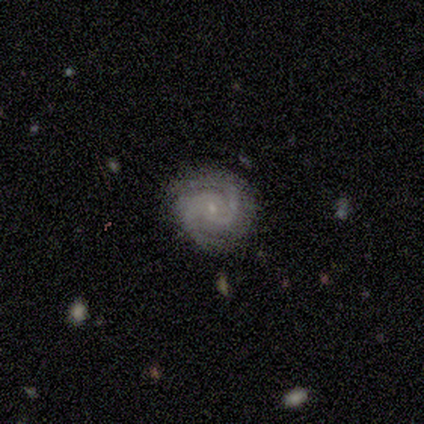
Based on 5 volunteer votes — smooth_or_featured: featured or disk (p=0.80) [alt: smooth p=0.20]
disk_edge_on: no (p=1.00)
bar: no (p=0.75) [alt: strong p=0.25]
has_spiral_arms: yes (p=1.00)
spiral_winding: tight (p=0.50) [tied with: medium p=0.50]
spiral_arm_count: 2 (p=0.50) [alt: 4 p=0.25]
bulge_size: small (p=1.00)
merging: none (p=0.80) [alt: minor disturbance p=0.20]